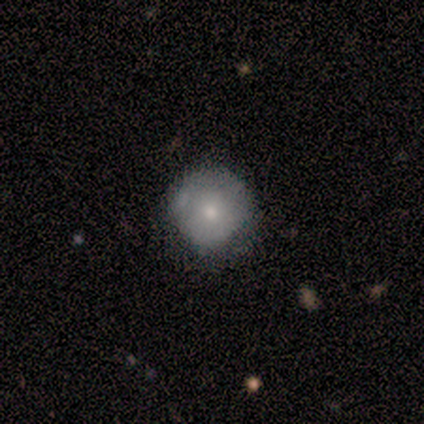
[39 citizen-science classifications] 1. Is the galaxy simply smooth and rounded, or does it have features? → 64% smooth, 26% featured or disk, 10% star or artifact.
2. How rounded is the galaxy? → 96% round, 4% in between, 0% cigar-shaped.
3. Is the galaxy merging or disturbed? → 40% none, 26% minor disturbance, 0% major disturbance, 0% merger.